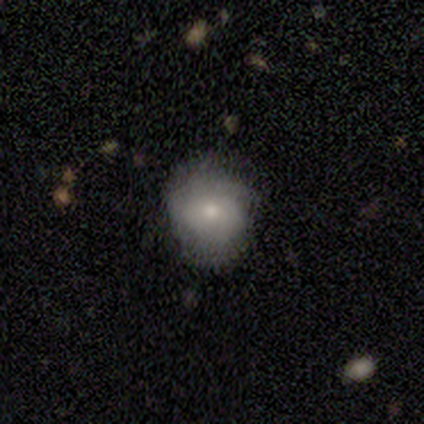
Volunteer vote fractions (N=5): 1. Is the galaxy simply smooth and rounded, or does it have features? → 60% smooth, 40% featured or disk, 0% star or artifact.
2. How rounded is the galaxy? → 67% round, 33% in between, 0% cigar-shaped.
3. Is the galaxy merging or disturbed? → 100% none, 0% minor disturbance, 0% major disturbance, 0% merger.